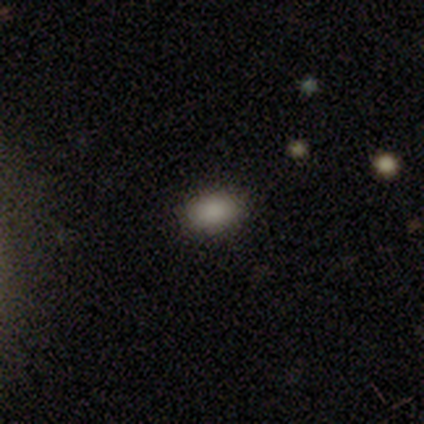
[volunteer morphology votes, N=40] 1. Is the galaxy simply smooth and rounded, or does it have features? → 92% smooth, 5% star or artifact, 2% featured or disk.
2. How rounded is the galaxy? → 89% in between, 11% round, 0% cigar-shaped.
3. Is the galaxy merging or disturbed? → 95% none, 5% minor disturbance, 0% major disturbance, 0% merger.